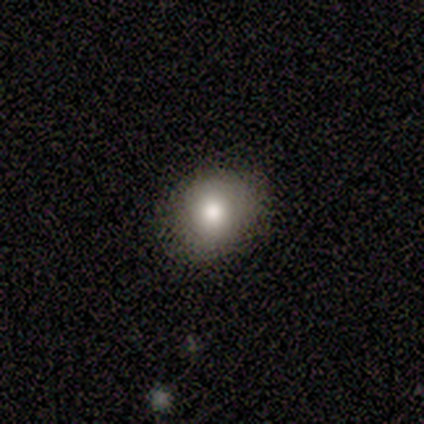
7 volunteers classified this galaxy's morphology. Overall: smooth (86%). How rounded: round (50%, tied with in between). Merging: none (100%).